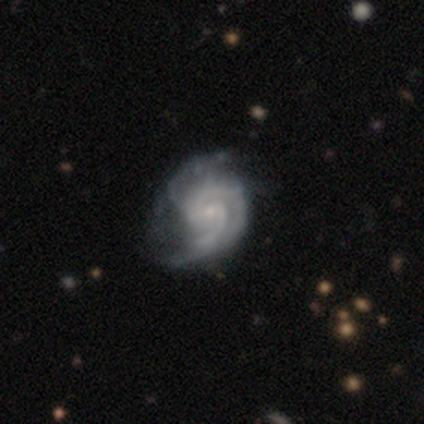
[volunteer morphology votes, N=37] Smooth or featured? 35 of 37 (95%) said featured or disk. Edge-on disk? 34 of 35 (97%) said no. Bar? 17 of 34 (50%) said weak. Spiral arms? 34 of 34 (100%) said yes. Spiral winding? 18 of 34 (53%) said medium. Spiral arm count? 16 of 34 (47%) said 2. Bulge size? 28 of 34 (82%) said small. Merging? 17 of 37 (46%) said none.